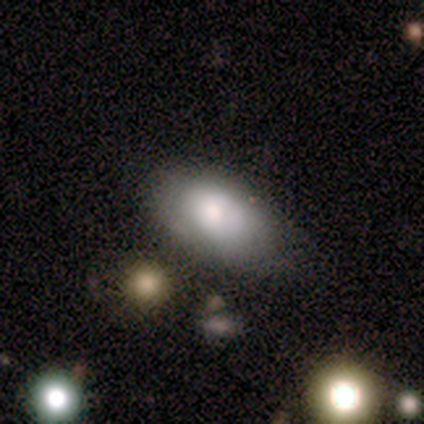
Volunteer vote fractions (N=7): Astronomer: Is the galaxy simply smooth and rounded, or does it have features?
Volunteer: smooth — 86%.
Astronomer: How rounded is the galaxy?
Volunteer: in between — 100%.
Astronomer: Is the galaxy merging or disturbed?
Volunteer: none — 57% (runner-up: minor disturbance, 43%).